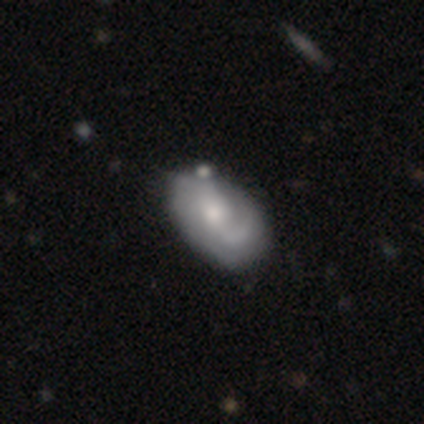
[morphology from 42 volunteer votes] Smooth or featured? featured or disk (79%)
Edge-on disk? no (100%)
Bar? no (64%)
Spiral arms? yes (91%)
Spiral winding? medium (47%)
Spiral arm count? 2 (53%)
Bulge size? small (52%)
Merging? minor disturbance (26%)